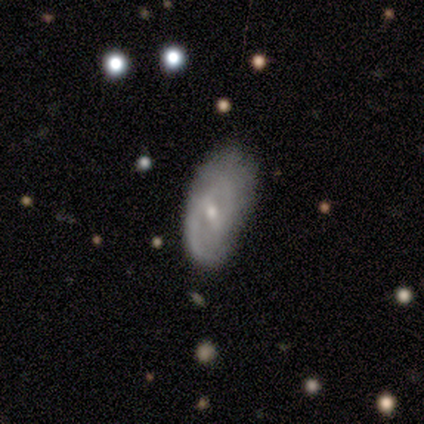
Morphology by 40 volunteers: Overall: featured or disk (78%). Edge-on disk: no (90%). Bar: weak (50%; strong 29%). Spiral arms: yes (82%). Spiral arm count: 2 (48%; can't tell 35%). Spiral winding: medium (57%; tight 35%). Bulge size: small (71%). Merging: none (53%; minor disturbance 42%).